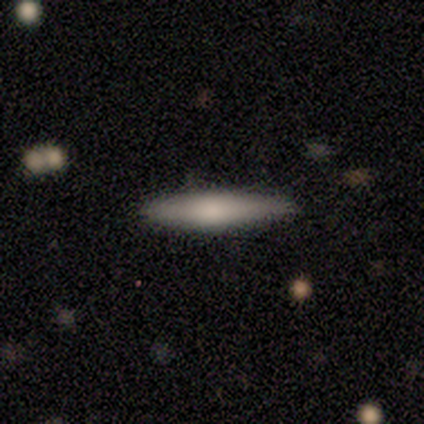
smooth 60%, featured or disk 40%, star or artifact 0%. Down the decision tree: how rounded — cigar-shaped (100%); merging — none (100%).